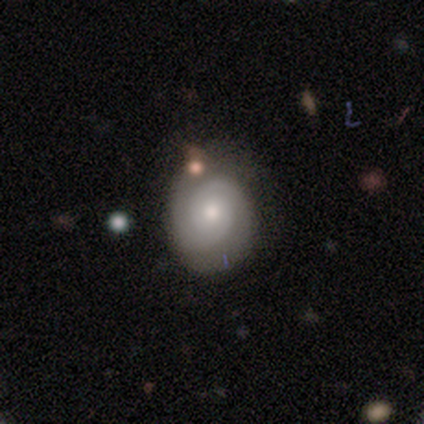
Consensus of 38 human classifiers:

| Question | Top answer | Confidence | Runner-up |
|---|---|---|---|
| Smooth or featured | featured or disk | 79% | smooth (21%) |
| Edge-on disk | no | 97% | yes (3%) |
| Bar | no | 79% | weak (21%) |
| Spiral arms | yes | 100% | — |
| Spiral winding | tight | 62% | medium (34%) |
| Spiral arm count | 2 | 90% | 3 (7%) |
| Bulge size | moderate | 72% | small (21%) |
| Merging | none | 47% | minor disturbance (11%) |